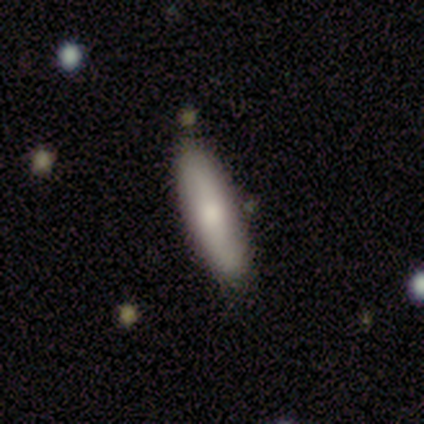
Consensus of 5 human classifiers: Q: Smooth or featured?
A: smooth (100%)
Q: How rounded?
A: in between (60%); runner-up: cigar-shaped (40%)
Q: Merging?
A: none (60%); runner-up: minor disturbance (40%)